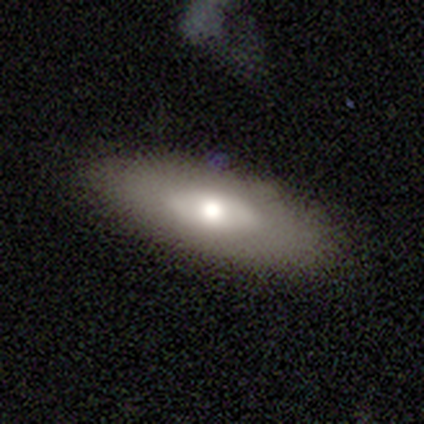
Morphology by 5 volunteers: smooth 60%, featured or disk 40%, star or artifact 0%. Down the decision tree: how rounded — in between (100%); merging — none (80%).